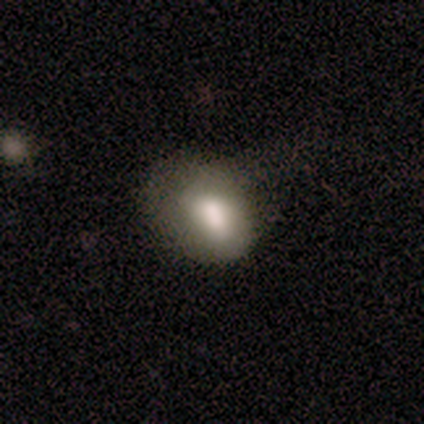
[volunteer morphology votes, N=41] This is likely a smooth galaxy (71%). How rounded: likely in between (79%). Merging: marginally none (39%).